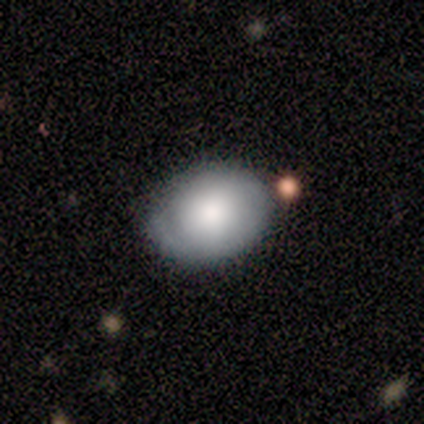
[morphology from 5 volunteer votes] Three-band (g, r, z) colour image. It shows a smooth galaxy with no disk features (80%) that is round (50%, tied with in between). Merging: none (80%).